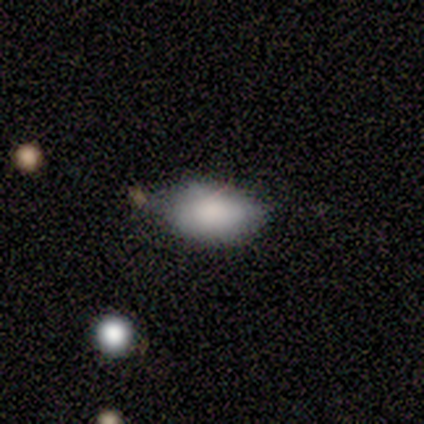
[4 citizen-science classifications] Morphology: type=smooth (100%); roundness=in between (75%); merging=minor disturbance (50%).